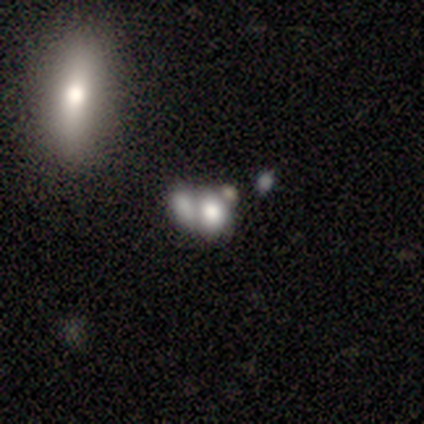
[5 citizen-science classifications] This appears to be a star or artifact, not a galaxy (60%).